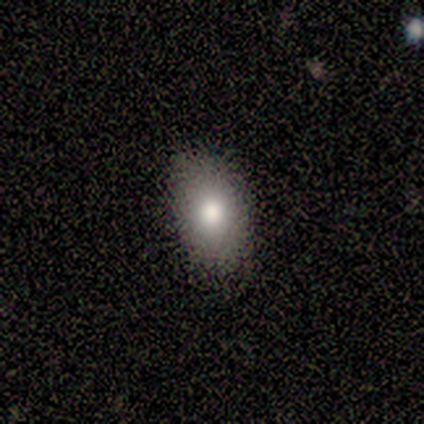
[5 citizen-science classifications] smooth_or_featured: smooth (p=1.00)
how_rounded: in between (p=1.00)
merging: none (p=0.80) [alt: minor disturbance p=0.20]